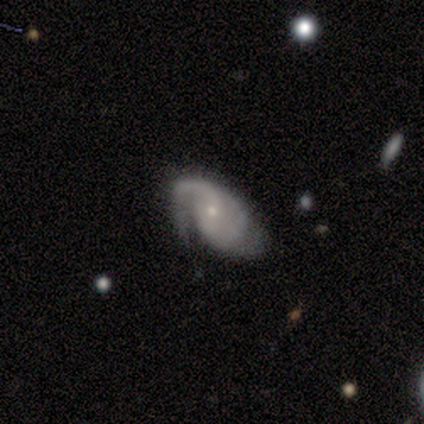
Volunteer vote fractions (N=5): A featured or disk galaxy (100%) with no bar (75%), 2 (100%) tight (67%) spiral arms (75%) and a small central bulge (75%). Merging: minor disturbance (60%).